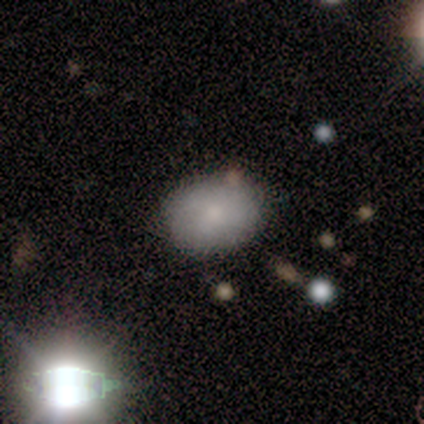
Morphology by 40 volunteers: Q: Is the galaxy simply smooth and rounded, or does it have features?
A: smooth — 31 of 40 (78%).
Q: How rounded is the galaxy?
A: in between — 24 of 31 (77%).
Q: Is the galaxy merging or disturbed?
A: none — 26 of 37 (70%).